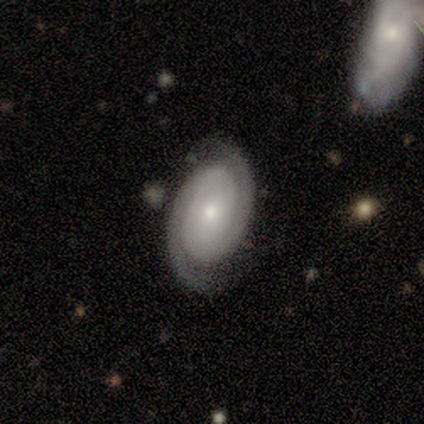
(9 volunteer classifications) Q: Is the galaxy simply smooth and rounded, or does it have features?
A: featured or disk — 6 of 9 (67%).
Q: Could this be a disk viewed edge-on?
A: no — 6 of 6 (100%).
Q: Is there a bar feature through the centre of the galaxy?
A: no — 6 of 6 (100%).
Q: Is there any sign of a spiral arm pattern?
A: yes — 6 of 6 (100%).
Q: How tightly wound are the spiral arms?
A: tight — 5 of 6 (83%).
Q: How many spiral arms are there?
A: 2 — 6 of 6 (100%).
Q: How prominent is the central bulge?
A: small — 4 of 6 (67%).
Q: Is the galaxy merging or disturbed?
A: none — 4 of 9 (44%, tied with minor disturbance).